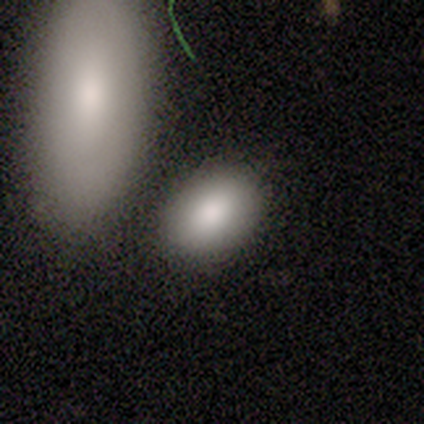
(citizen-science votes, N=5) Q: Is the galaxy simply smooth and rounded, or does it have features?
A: smooth — 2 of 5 (40%, tied with star or artifact).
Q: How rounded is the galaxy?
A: in between — 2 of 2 (100%).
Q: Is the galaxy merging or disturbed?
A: none — 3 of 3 (100%).